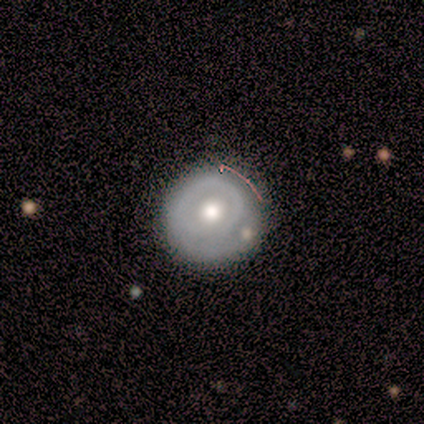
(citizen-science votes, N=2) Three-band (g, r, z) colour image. It shows a smooth galaxy with no disk features (50%, tied with featured or disk) that is round (100%). Merging: none (100%).